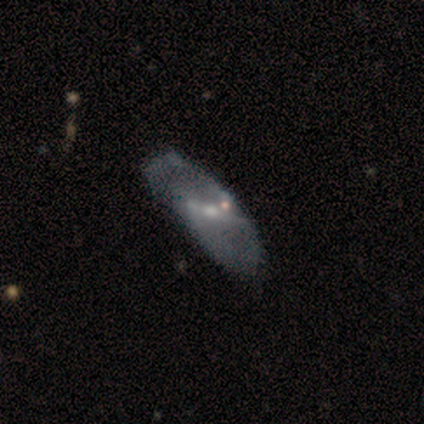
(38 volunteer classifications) smooth_or_featured: featured or disk (p=0.76) [alt: smooth p=0.24]
disk_edge_on: no (p=0.93) [alt: yes p=0.07]
bar: strong (p=0.44) [alt: no p=0.30]
has_spiral_arms: yes (p=0.63) [alt: no p=0.37]
spiral_winding: loose (p=0.59) [alt: medium p=0.35]
spiral_arm_count: 2 (p=0.71) [alt: can't tell p=0.18]
bulge_size: small (p=0.48) [alt: moderate p=0.44]
merging: none (p=0.34) [alt: major disturbance p=0.16]